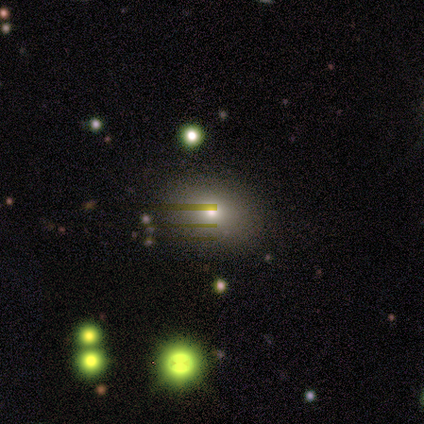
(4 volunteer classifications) Smooth or featured? smooth (50%)
How rounded? in between (100%)
Merging? none (67%)